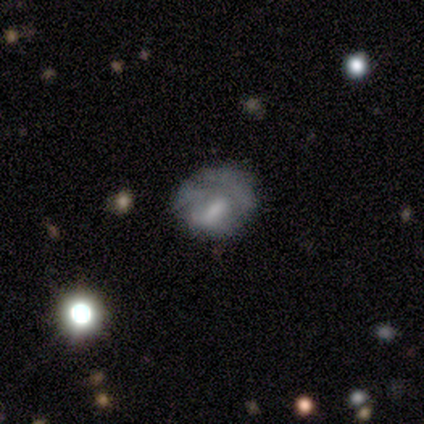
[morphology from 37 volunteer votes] Overall: featured or disk (49%; smooth 38%). Edge-on disk: no (100%). Bar: no (61%; weak 33%). Spiral arms: no (67%; yes 33%). Bulge size: moderate (56%; none 28%). Merging: minor disturbance (44%; major disturbance 31%).